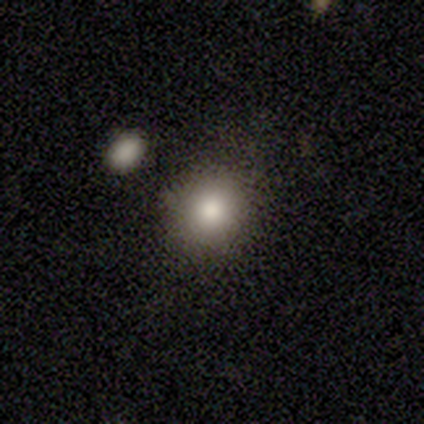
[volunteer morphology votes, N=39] Volunteers were most divided on "how rounded": round: 85%, in between: 15%, cigar-shaped: 0%. More confident: merging — none (85%); smooth or featured — smooth (85%).